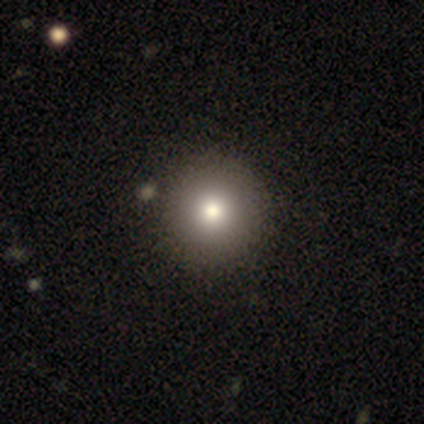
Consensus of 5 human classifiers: This is clearly a smooth galaxy (80%). How rounded: clearly round (100%). Merging: clearly none (100%).